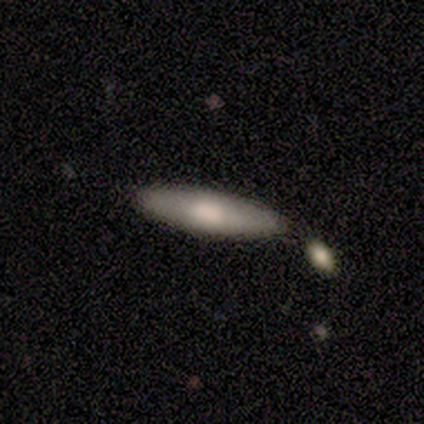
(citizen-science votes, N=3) A smooth galaxy with no disk features (67%) that is round (50%, tied with cigar-shaped).

Vote fractions:
- Smooth or featured? smooth: 67% / featured or disk: 33% / star or artifact: 0%
- How rounded? round: 50% (tied) / cigar-shaped: 50% (tied) / in between: 0%
- Merging? none: 67% / merger: 33% / minor disturbance: 0% / major disturbance: 0%